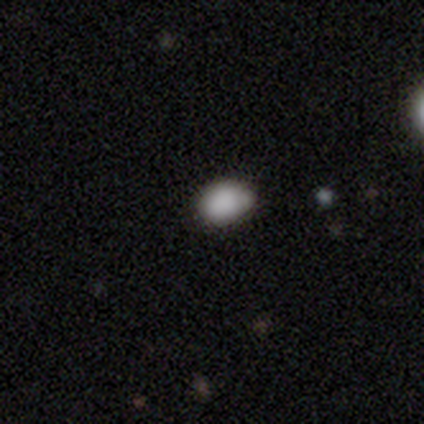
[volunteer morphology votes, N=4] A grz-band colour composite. It shows a smooth galaxy with no disk features (75%) that is in between round and cigar-shaped (100%). Merging: none (33%, tied with minor disturbance and merger).